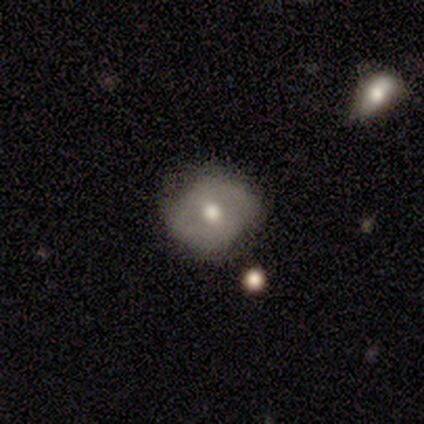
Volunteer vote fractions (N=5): Smooth or featured? 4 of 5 (80%) said smooth. How rounded? 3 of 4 (75%) said round. Merging? 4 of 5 (80%) said none.